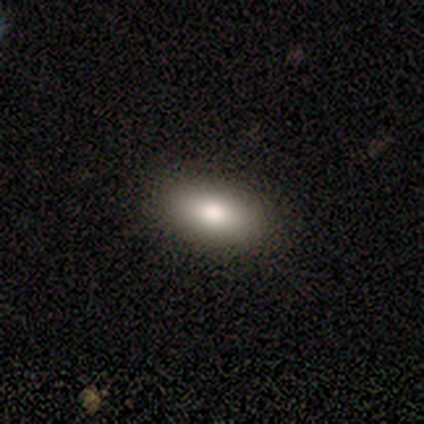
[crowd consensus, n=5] smooth_or_featured: smooth (p=1.00)
how_rounded: in between (p=0.60) [alt: round p=0.40]
merging: none (p=1.00)